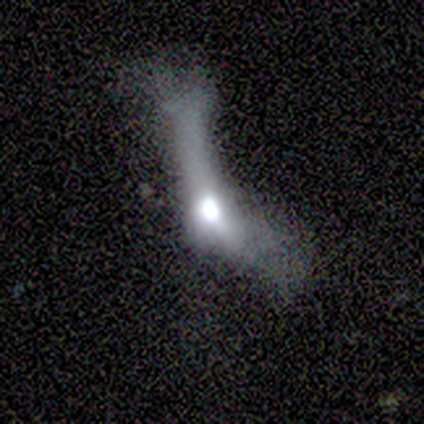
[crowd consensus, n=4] This is possibly a smooth galaxy (50%, tied with featured or disk). How rounded: clearly cigar-shaped (100%). Merging: possibly none (50%, tied with major disturbance).